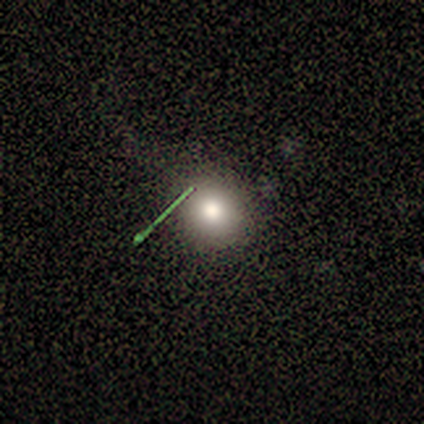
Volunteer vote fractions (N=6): This appears to be a smooth galaxy with no disk features (67%) that is round (100%). Merging: none (100%).